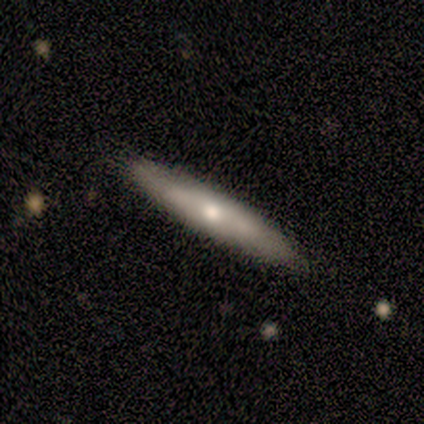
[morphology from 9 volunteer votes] featured or disk 56%, smooth 33%, star or artifact 11%. Down the decision tree: edge-on disk — yes (80%); edge-on bulge — rounded (75%); merging — none (75%).